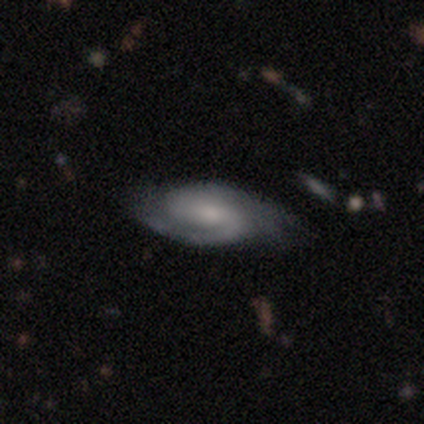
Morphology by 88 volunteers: Smooth or featured: featured or disk — 80% (smooth — 12%)
Edge-on disk: no — 94% (yes — 6%)
Bar: weak — 53% (no — 39%)
Spiral arms: yes — 97% (no — 3%)
Spiral winding: medium — 48% (tight — 44%)
Spiral arm count: 2 — 89% (can't tell — 6%)
Bulge size: small — 48% (moderate — 38%)
Merging: none — 67% (minor disturbance — 19%)